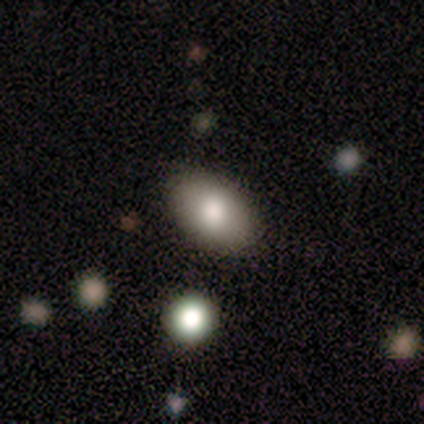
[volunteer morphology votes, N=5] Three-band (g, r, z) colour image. It shows a smooth galaxy with no disk features (80%) that is in between round and cigar-shaped (100%). Merging: none (80%).